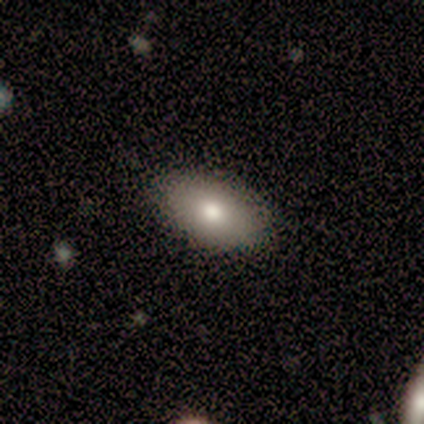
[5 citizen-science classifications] Smooth or featured?
  - smooth: 80% *
  - featured or disk: 20%
  - star or artifact: 0%
How rounded?
  - in between: 100% *
  - round: 0%
  - cigar-shaped: 0%
Merging?
  - none: 100% *
  - minor disturbance: 0%
  - major disturbance: 0%
  - merger: 0%